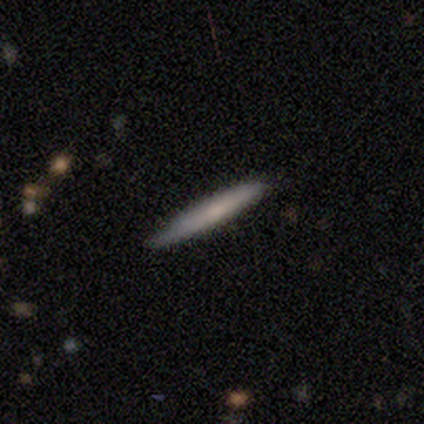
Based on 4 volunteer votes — A smooth galaxy with no disk features (75%) that is cigar-shaped (100%).

Vote fractions:
- Smooth or featured? smooth: 75% / featured or disk: 25% / star or artifact: 0%
- How rounded? cigar-shaped: 100% / round: 0% / in between: 0%
- Merging? none: 50% (tied) / minor disturbance: 50% (tied) / major disturbance: 0% / merger: 0%